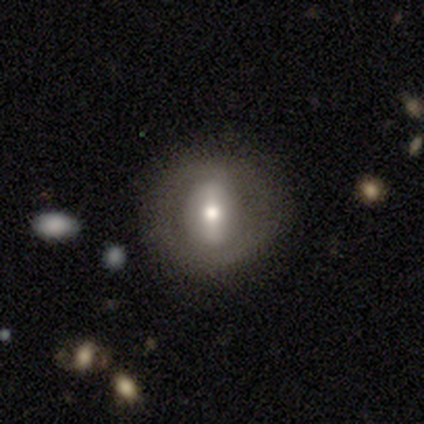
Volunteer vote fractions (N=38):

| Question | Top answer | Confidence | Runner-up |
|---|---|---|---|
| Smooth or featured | featured or disk | 55% | smooth (26%) |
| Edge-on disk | no | 95% | yes (5%) |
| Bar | strong | 50% | weak (40%) |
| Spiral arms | no | 55% | yes (45%) |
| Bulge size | moderate | 55% | large (20%) |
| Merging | none | 84% | minor disturbance (16%) |